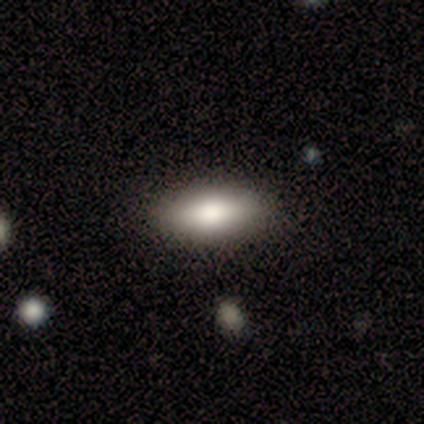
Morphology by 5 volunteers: smooth-or-featured: smooth: 80% | featured or disk: 20% | star or artifact: 0%
  how-rounded: in between: 100% | round: 0% | cigar-shaped: 0%
  merging: none: 100% | minor disturbance: 0% | major disturbance: 0% | merger: 0%